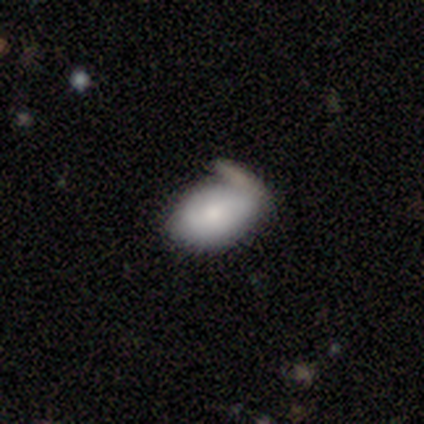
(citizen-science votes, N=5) Smooth or featured? 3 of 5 (60%) said smooth. How rounded? 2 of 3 (67%) said in between. Merging? 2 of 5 (40%, tied with major disturbance) said none.